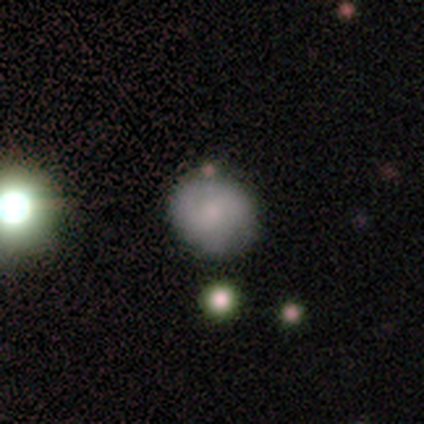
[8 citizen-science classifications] Q: Smooth or featured?
A: smooth (62%); runner-up: star or artifact (25%)
Q: How rounded?
A: round (80%); runner-up: in between (20%)
Q: Merging?
A: none (83%); runner-up: minor disturbance (17%)